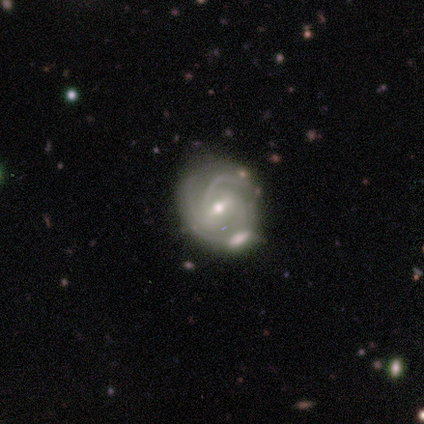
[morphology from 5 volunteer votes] Smooth or featured?
  - featured or disk: 80% *
  - smooth: 20%
  - star or artifact: 0%
Edge-on disk?
  - no: 100% *
  - yes: 0%
Bar?
  - strong: 50% *
  - weak: 25%
  - no: 25%
Spiral arms?
  - yes: 100% *
  - no: 0%
Spiral winding?
  - tight: 75% *
  - medium: 25%
  - loose: 0%
Spiral arm count?
  - 2: 50% *
  - 3: 25%
  - can't tell: 25%
  - 1: 0%
  - 4: 0%
  - more than 4: 0%
Bulge size?
  - small: 75% *
  - moderate: 25%
  - dominant: 0%
  - large: 0%
  - none: 0%
Merging?
  - none: 60% *
  - minor disturbance: 40%
  - major disturbance: 0%
  - merger: 0%